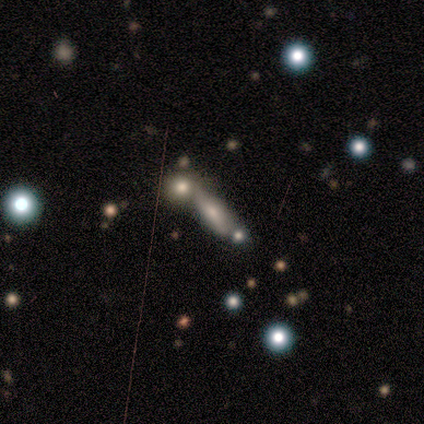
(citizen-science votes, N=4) This appears to be a smooth galaxy with no disk features (50%, tied with featured or disk) that is cigar-shaped (100%). Merging: merger (50%).